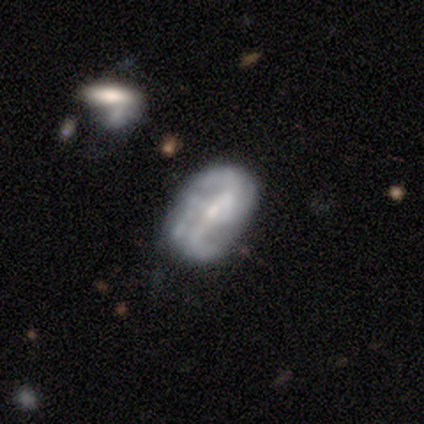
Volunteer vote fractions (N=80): Q: Smooth or featured?
A: featured or disk (72%); runner-up: smooth (24%)
Q: Edge-on disk?
A: no (100%)
Q: Bar?
A: no (41%); runner-up: strong (38%)
Q: Spiral arms?
A: yes (79%); runner-up: no (21%)
Q: Spiral winding?
A: loose (43%); runner-up: medium (35%)
Q: Spiral arm count?
A: 2 (39%); runner-up: 3 (26%)
Q: Bulge size?
A: small (57%); runner-up: moderate (28%)
Q: Merging?
A: none (52%); runner-up: minor disturbance (31%)